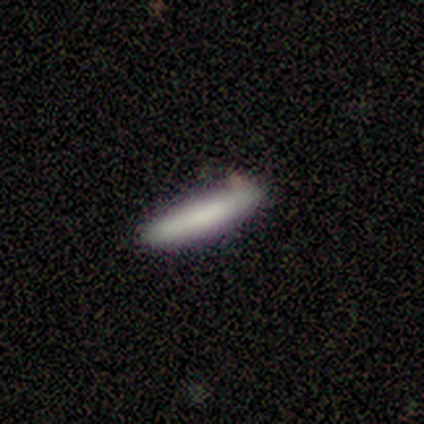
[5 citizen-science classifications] smooth-or-featured: smooth: 80% | featured or disk: 20% | star or artifact: 0%
  how-rounded: cigar-shaped: 75% | in between: 25% | round: 0%
  merging: none: 100% | minor disturbance: 0% | major disturbance: 0% | merger: 0%